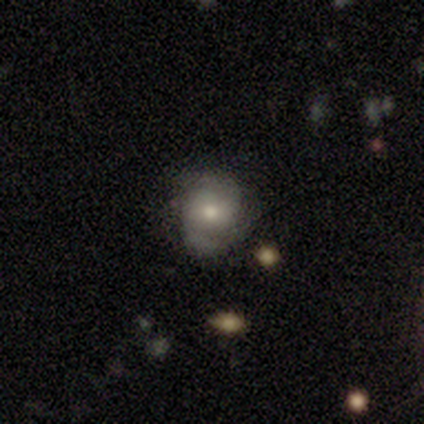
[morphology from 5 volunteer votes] smooth_or_featured: featured or disk (p=0.80) [alt: smooth p=0.20]
disk_edge_on: no (p=1.00)
bar: no (p=0.75) [alt: weak p=0.25]
has_spiral_arms: yes (p=0.75) [alt: no p=0.25]
spiral_winding: tight (p=0.67) [alt: medium p=0.33]
spiral_arm_count: 2 (p=0.33) [tied with: 4 p=0.33, can't tell p=0.33]
bulge_size: small (p=0.75) [alt: moderate p=0.25]
merging: none (p=0.80) [alt: minor disturbance p=0.20]